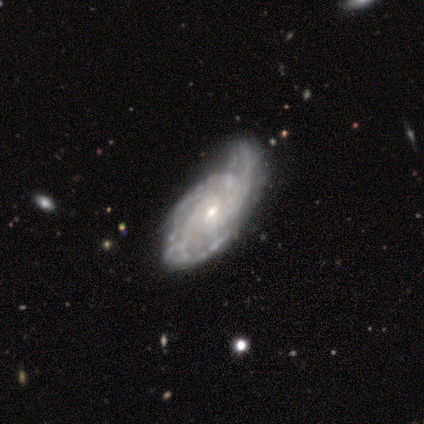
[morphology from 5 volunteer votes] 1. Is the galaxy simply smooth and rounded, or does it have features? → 60% featured or disk, 20% smooth, 20% star or artifact.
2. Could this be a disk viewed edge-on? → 100% no, 0% yes.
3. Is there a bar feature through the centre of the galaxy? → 100% no, 0% strong, 0% weak.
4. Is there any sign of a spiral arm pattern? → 67% yes, 33% no.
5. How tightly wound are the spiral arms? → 100% tight, 0% medium, 0% loose.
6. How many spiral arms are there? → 50% more than 4 (tied), 50% can't tell (tied), 0% 1, 0% 2, 0% 3, 0% 4.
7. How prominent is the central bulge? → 100% small, 0% dominant, 0% large, 0% moderate, 0% none.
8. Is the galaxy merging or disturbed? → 75% minor disturbance, 25% merger, 0% none, 0% major disturbance.